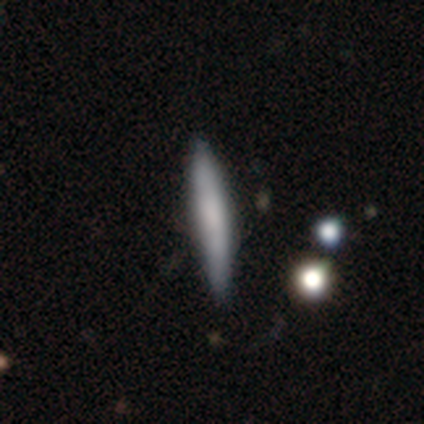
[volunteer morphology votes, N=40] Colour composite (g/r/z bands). It shows a smooth galaxy with no disk features (72%) that is cigar-shaped (97%). Merging: none (85%).